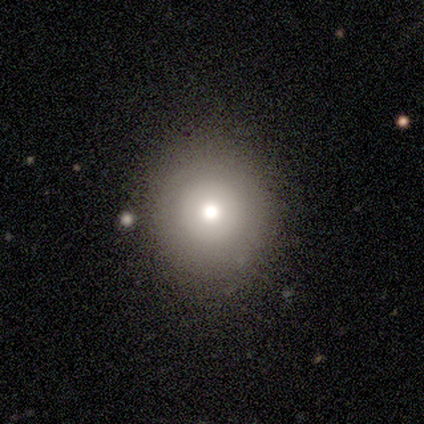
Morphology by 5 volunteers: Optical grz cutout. It shows a smooth galaxy with no disk features (80%) that is round (100%). Merging: none (80%).